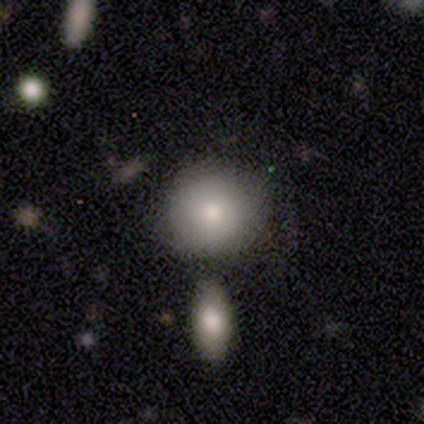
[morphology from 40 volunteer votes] Smooth or featured?
  - smooth: 82% *
  - featured or disk: 12%
  - star or artifact: 5%
How rounded?
  - round: 91% *
  - in between: 9%
  - cigar-shaped: 0%
Merging?
  - none: 63% *
  - minor disturbance: 18%
  - merger: 16%
  - major disturbance: 3%